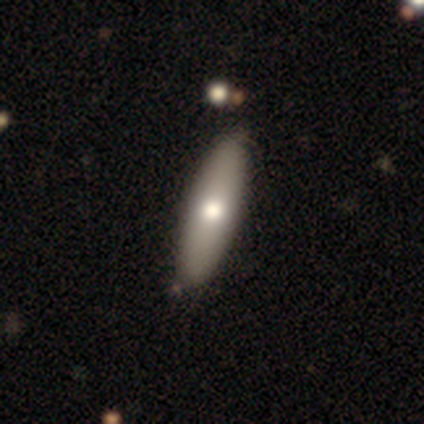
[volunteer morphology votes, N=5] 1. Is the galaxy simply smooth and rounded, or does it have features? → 60% featured or disk, 20% smooth, 20% star or artifact.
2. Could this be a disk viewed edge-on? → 67% no, 33% yes.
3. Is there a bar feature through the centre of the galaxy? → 100% no, 0% strong, 0% weak.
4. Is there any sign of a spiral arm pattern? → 100% no, 0% yes.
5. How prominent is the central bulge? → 100% moderate, 0% dominant, 0% large, 0% small, 0% none.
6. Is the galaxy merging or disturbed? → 75% none, 25% minor disturbance, 0% major disturbance, 0% merger.